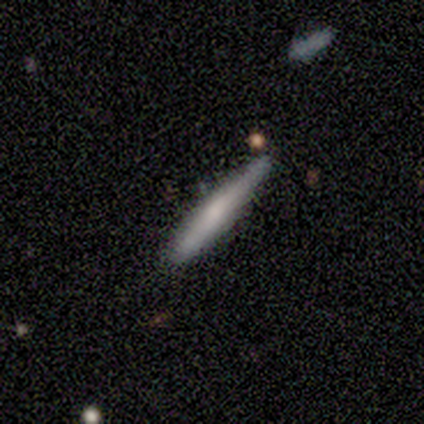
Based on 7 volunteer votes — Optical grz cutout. It shows a featured or disk galaxy (57%) viewed edge-on (75%) with a rounded central bulge (67%). Merging: none (86%).